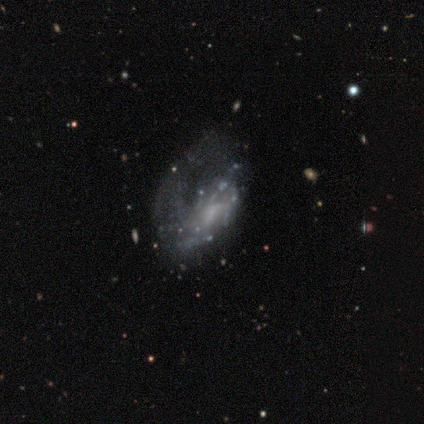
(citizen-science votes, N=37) Overall: featured or disk (70%). Edge-on disk: no (100%). Bar: no (73%). Spiral arms: yes (50%, tied with no). Spiral arm count: 1 (38%; can't tell 23%). Spiral winding: loose (54%; tight 31%). Bulge size: none (46%; small 42%). Merging: major disturbance (40%; none 20%).